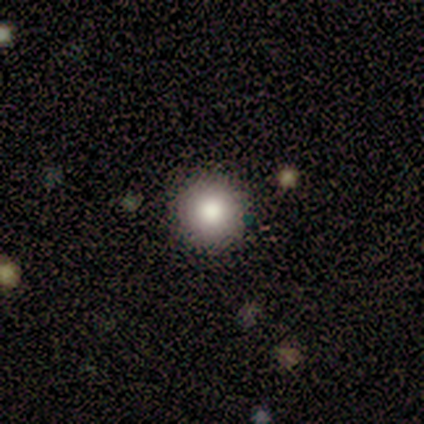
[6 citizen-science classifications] A smooth galaxy with no disk features (83%) that is round (100%).

Vote fractions:
- Smooth or featured? smooth: 83% / star or artifact: 17% / featured or disk: 0%
- How rounded? round: 100% / in between: 0% / cigar-shaped: 0%
- Merging? none: 80% / minor disturbance: 20% / major disturbance: 0% / merger: 0%